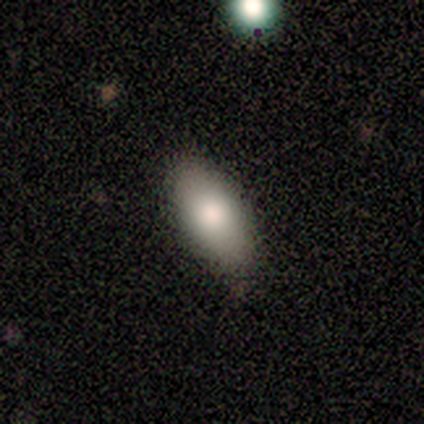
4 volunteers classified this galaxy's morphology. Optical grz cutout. It shows a smooth galaxy with no disk features (75%) that is in between round and cigar-shaped (67%). Merging: none (67%).